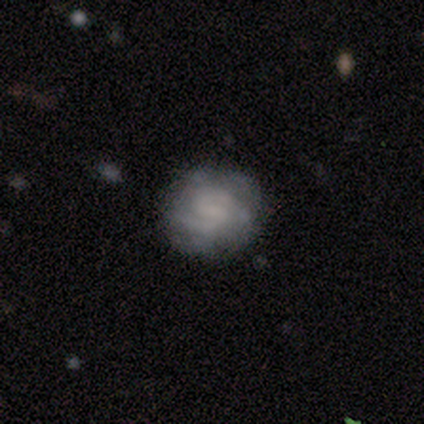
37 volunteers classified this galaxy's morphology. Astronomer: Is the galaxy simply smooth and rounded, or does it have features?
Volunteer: featured or disk — 81%.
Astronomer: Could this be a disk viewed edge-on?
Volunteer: no — 97%.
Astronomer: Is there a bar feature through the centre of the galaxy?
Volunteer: no — 48% (runner-up: weak, 34%).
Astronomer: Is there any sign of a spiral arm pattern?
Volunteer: yes — 83%.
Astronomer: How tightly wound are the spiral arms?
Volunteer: tight — 71%.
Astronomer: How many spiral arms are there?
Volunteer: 2 — 62%.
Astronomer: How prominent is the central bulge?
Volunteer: none — 59%.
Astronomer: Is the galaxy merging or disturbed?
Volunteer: none — 78%.